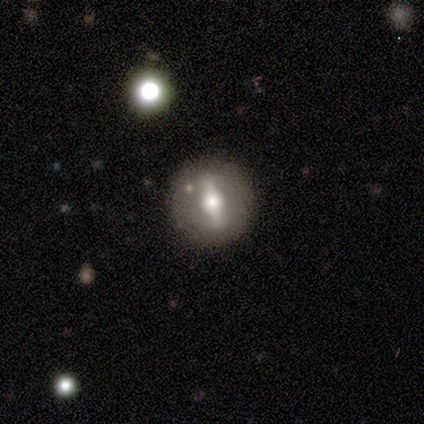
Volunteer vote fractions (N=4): Smooth or featured? 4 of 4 (100%) said featured or disk. Edge-on disk? 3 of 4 (75%) said no. Bar? 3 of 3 (100%) said strong. Spiral arms? 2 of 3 (67%) said no. Bulge size? 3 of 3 (100%) said moderate. Merging? 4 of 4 (100%) said none.